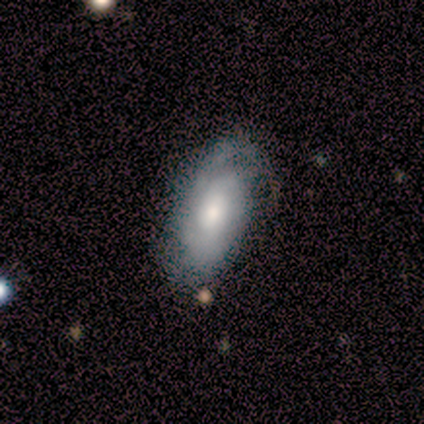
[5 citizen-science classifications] A smooth galaxy with no disk features (40%, tied with featured or disk) that is in between round and cigar-shaped (100%).

Vote fractions:
- Smooth or featured? smooth: 40% (tied) / featured or disk: 40% (tied) / star or artifact: 20%
- How rounded? in between: 100% / round: 0% / cigar-shaped: 0%
- Merging? minor disturbance: 50% / none: 25% / major disturbance: 25% / merger: 0%